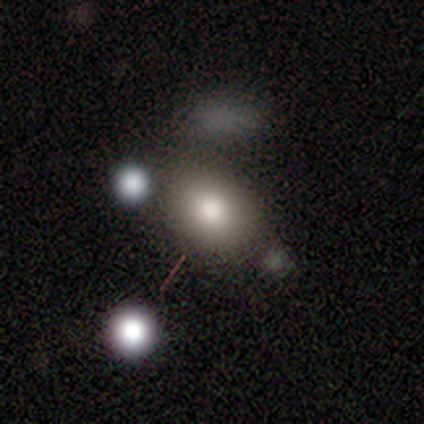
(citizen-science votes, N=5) Smooth or featured?
  - smooth: 60% *
  - featured or disk: 40%
  - star or artifact: 0%
How rounded?
  - in between: 67% *
  - round: 33%
  - cigar-shaped: 0%
Merging?
  - none: 60% *
  - minor disturbance: 20%
  - merger: 20%
  - major disturbance: 0%